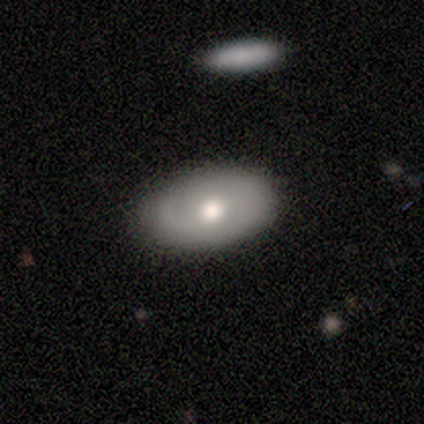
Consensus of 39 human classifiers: This appears to be a smooth galaxy with no disk features (49%) that is in between round and cigar-shaped (84%). Merging: none (81%).